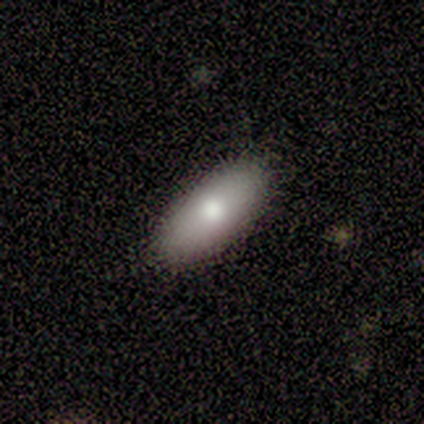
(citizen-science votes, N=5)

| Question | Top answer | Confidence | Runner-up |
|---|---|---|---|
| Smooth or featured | smooth | 60% | featured or disk (40%) |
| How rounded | in between | 100% | — |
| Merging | none | 80% | minor disturbance (20%) |